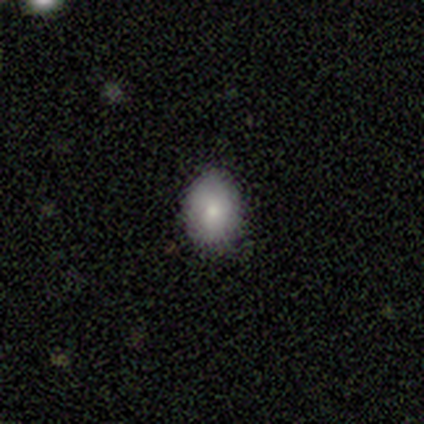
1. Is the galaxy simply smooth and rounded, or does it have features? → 100% smooth, 0% featured or disk, 0% star or artifact.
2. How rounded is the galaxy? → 100% in between, 0% round, 0% cigar-shaped.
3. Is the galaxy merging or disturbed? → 100% none, 0% minor disturbance, 0% major disturbance, 0% merger.